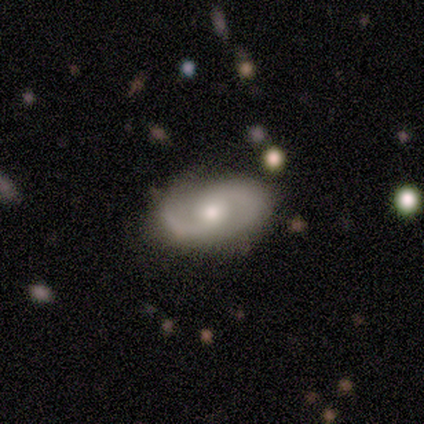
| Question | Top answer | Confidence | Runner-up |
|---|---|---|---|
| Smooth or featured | featured or disk | 67% | smooth (33%) |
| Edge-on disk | no | 100% | — |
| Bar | weak | 100% | — |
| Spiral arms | yes | 100% | — |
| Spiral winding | tight | 50% | tied: medium (50%) |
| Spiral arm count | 2 | 100% | — |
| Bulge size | moderate | 100% | — |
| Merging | none | 67% | minor disturbance (33%) |